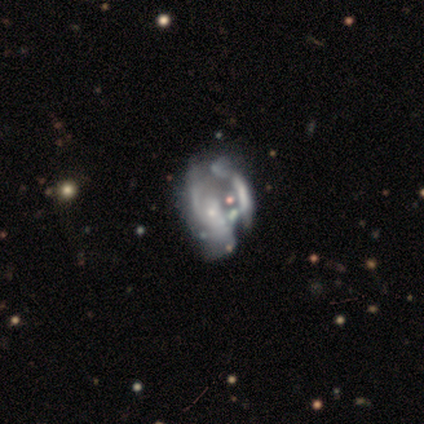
A featured or disk galaxy (94%) with no bar (87%), loose (46%) spiral arms (52%) and a small central bulge (59%).

Vote fractions:
- Smooth or featured? featured or disk: 94% / star or artifact: 4% / smooth: 2%
- Edge-on disk? no: 98% / yes: 2%
- Bar? no: 87% / weak: 11% / strong: 2%
- Spiral arms? yes: 52% / no: 48%
- Spiral winding? loose: 46% / medium: 38% / tight: 17%
- Spiral arm count? can't tell: 62% / 2: 29% / 1: 8% / 3: 0% / 4: 0% / more than 4: 0%
- Bulge size? small: 59% / none: 26% / moderate: 15% / dominant: 0% / large: 0%
- Merging? major disturbance: 40% / merger: 31% / none: 17% / minor disturbance: 12%